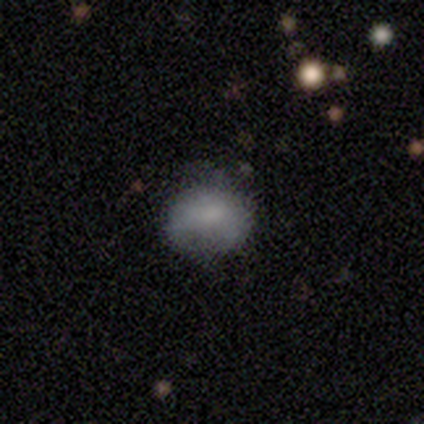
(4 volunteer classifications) Morphology: type=smooth (50%); roundness=in between (100%); merging=none (100%).